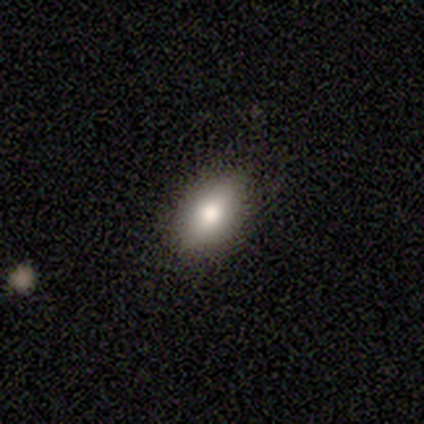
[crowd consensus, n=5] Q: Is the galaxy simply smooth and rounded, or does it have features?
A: smooth — 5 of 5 (100%).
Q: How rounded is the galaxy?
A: in between — 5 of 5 (100%).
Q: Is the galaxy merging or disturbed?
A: none — 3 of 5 (60%).